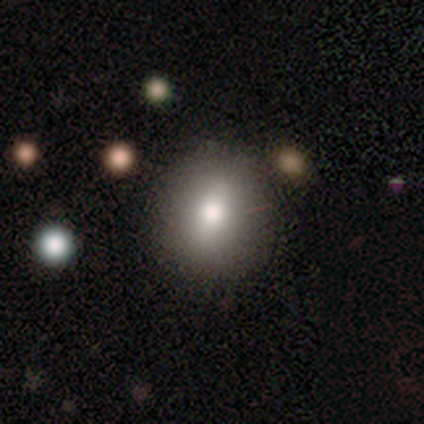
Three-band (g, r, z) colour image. It shows a smooth galaxy with no disk features (65%) that is round (64%). Merging: none (81%).